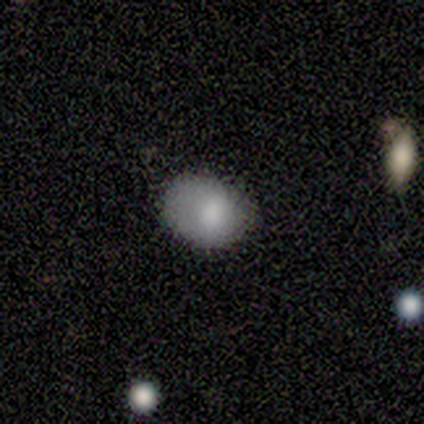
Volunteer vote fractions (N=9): Smooth or featured: smooth — 78% (featured or disk — 11%)
How rounded: in between — 86% (round — 14%)
Merging: none — 62% (minor disturbance — 25%)